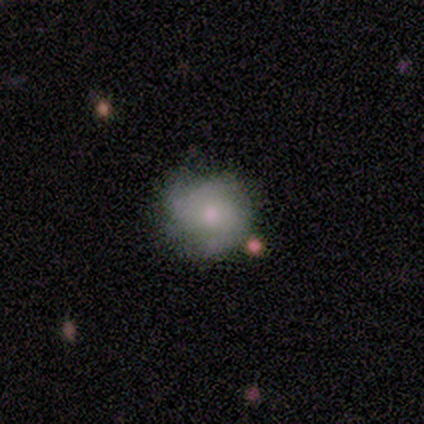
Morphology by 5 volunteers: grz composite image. It shows a featured or disk galaxy (60%) with no bar (100%), no spiral arms (67%) and a moderate central bulge (67%). Merging: none (80%).